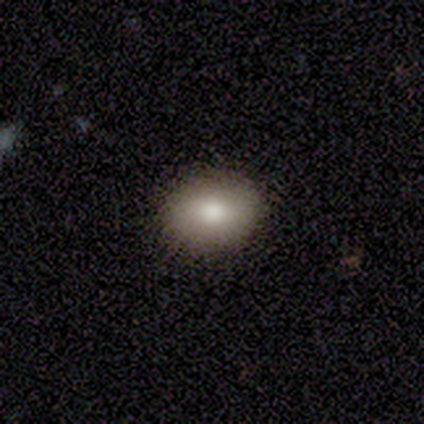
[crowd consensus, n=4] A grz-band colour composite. It shows a smooth galaxy with no disk features (75%) that is round (100%). Merging: none (100%).